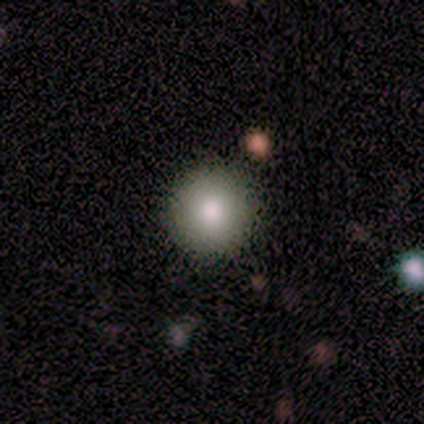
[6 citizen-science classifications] Morphology: type=smooth (100%); roundness=round (100%); merging=none (83%).